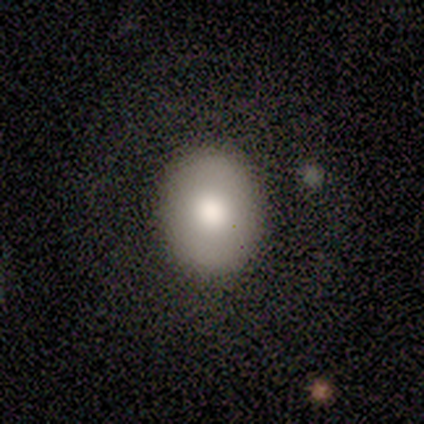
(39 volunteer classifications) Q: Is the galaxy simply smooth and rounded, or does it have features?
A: smooth — 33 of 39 (85%).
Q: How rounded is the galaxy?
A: in between — 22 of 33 (67%).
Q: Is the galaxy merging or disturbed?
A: none — 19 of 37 (51%).